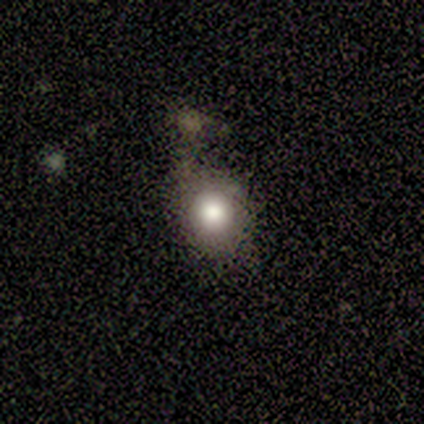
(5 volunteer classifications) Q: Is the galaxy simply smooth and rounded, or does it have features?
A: smooth — 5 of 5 (100%).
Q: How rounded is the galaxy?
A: round — 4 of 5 (80%).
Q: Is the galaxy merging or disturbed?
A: none — 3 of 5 (60%).